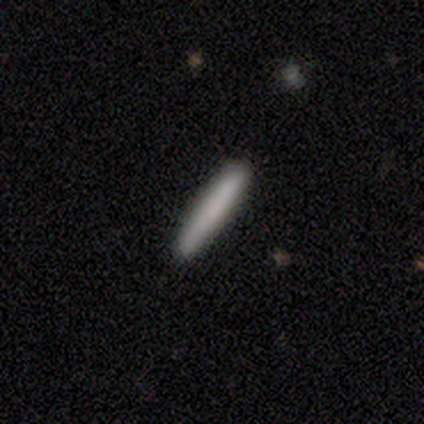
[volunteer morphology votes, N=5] A smooth galaxy with no disk features (100%) that is cigar-shaped (100%).

Vote fractions:
- Smooth or featured? smooth: 100% / featured or disk: 0% / star or artifact: 0%
- How rounded? cigar-shaped: 100% / round: 0% / in between: 0%
- Merging? none: 100% / minor disturbance: 0% / major disturbance: 0% / merger: 0%